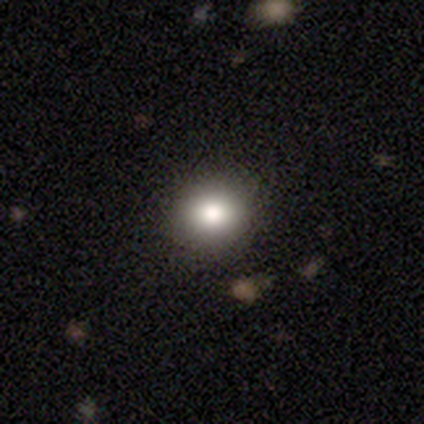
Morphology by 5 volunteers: Smooth or featured? 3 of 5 (60%) said smooth. How rounded? 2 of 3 (67%) said round. Merging? 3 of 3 (100%) said none.